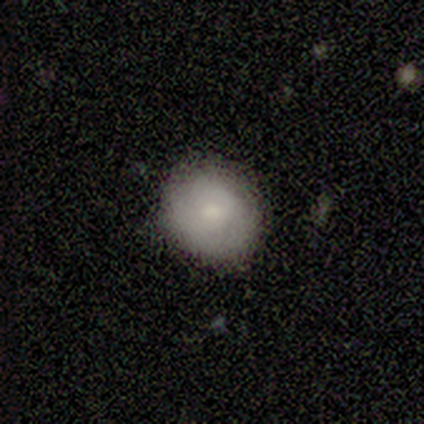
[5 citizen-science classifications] This appears to be a smooth galaxy with no disk features (60%) that is round (67%). Merging: none (100%).